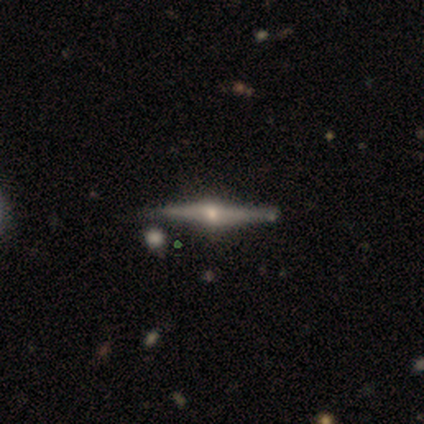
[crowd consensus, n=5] Smooth or featured: featured or disk — 60% (smooth — 20%)
Edge-on disk: yes — 100%
Edge-on bulge: rounded — 100%
Merging: none — 100%